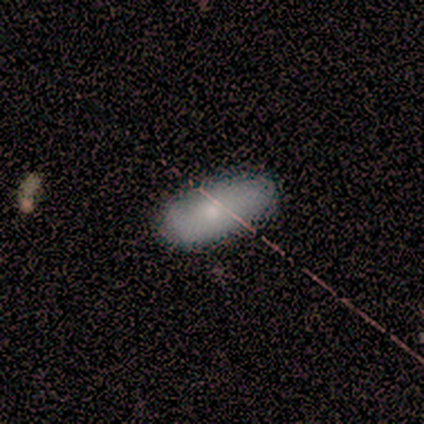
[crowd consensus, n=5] smooth-or-featured: smooth: 80% | star or artifact: 20% | featured or disk: 0%
  how-rounded: in between: 100% | round: 0% | cigar-shaped: 0%
  merging: none: 100% | minor disturbance: 0% | major disturbance: 0% | merger: 0%